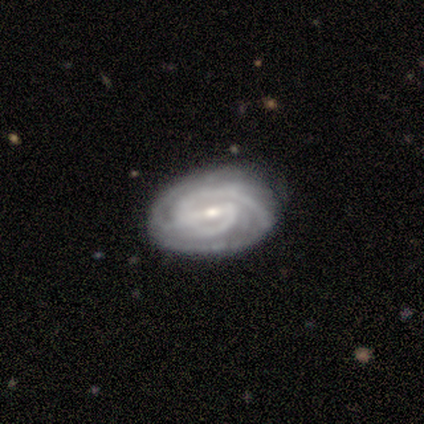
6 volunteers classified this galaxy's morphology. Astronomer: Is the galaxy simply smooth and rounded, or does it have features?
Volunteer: featured or disk — 100%.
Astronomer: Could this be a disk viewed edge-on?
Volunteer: no — 83%.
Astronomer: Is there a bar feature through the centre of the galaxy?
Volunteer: weak — 60% (runner-up: strong, 40%).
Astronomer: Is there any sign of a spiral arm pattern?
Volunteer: yes — 80%.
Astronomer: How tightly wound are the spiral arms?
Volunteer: tight — 100%.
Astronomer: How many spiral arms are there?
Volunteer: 3 — 50%.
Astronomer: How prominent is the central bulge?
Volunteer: small — 80%.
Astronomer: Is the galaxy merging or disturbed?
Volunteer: none — 67%.